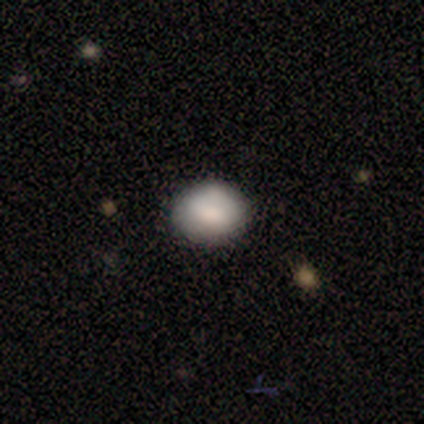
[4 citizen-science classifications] Smooth or featured: smooth — 75% (featured or disk — 25%)
How rounded: in between — 67% (round — 33%)
Merging: none — 100%